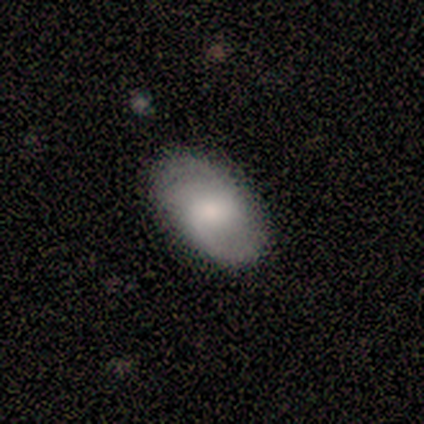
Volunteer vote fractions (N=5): Overall: featured or disk (80%). Edge-on disk: no (100%). Bar: weak (75%). Spiral arms: yes (100%). Spiral arm count: 2 (75%). Spiral winding: loose (75%). Bulge size: moderate (100%). Merging: none (60%; minor disturbance 40%).